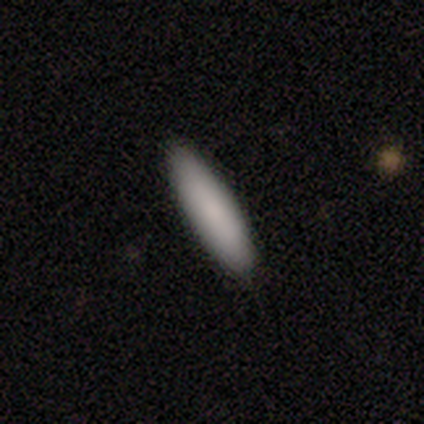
A smooth galaxy with no disk features (100%) that is in between round and cigar-shaped (75%).

Vote fractions:
- Smooth or featured? smooth: 100% / featured or disk: 0% / star or artifact: 0%
- How rounded? in between: 75% / cigar-shaped: 25% / round: 0%
- Merging? none: 100% / minor disturbance: 0% / major disturbance: 0% / merger: 0%